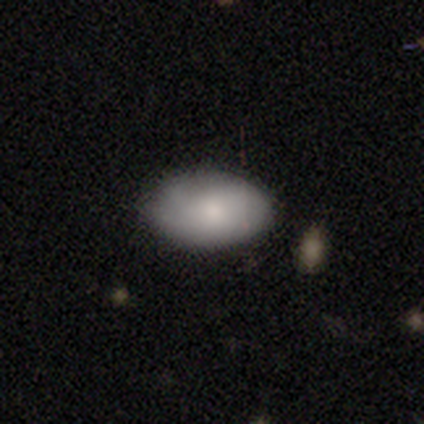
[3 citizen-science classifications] Smooth or featured? smooth (100%)
How rounded? in between (100%)
Merging? minor disturbance (67%)